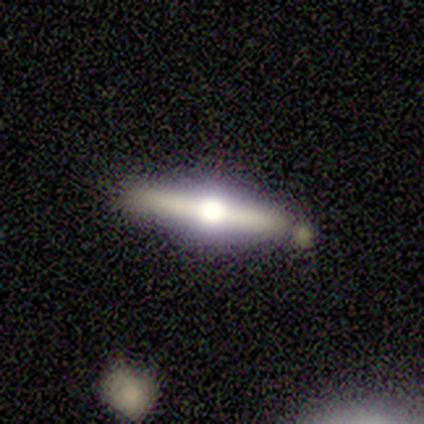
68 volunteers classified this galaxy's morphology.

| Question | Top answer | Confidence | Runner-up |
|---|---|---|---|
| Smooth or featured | featured or disk | 81% | smooth (10%) |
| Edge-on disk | yes | 93% | no (7%) |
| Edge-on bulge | rounded | 100% | — |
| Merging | none | 68% | minor disturbance (15%) |